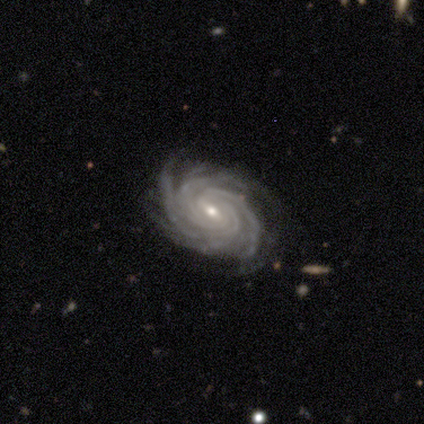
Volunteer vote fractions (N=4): This appears to be a featured or disk galaxy (100%) with a weak bar (75%), 4 (75%) tight (100%) spiral arms (100%) and a small central bulge (75%). Merging: none (75%).